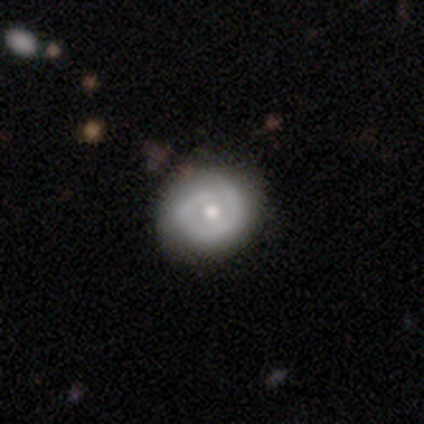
Smooth or featured? featured or disk (60%)
Edge-on disk? no (67%)
Bar? weak (50%, tied with no)
Spiral arms? yes (50%, tied with no)
Spiral winding? tight (50%, tied with medium)
Spiral arm count? 1 (50%, tied with 2)
Bulge size? moderate (100%)
Merging? none (67%)